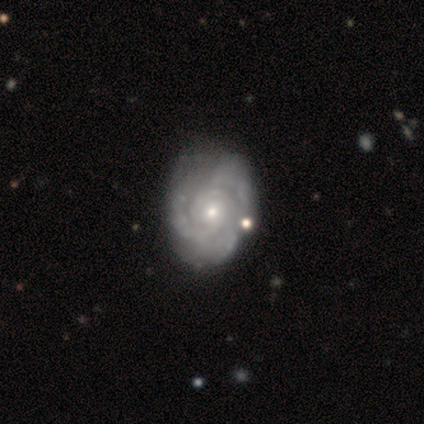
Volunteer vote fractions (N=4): Smooth or featured? featured or disk (100%)
Edge-on disk? no (100%)
Bar? no (75%)
Spiral arms? yes (100%)
Spiral winding? tight (75%)
Spiral arm count? can't tell (75%)
Bulge size? moderate (50%, tied with small)
Merging? none (75%)